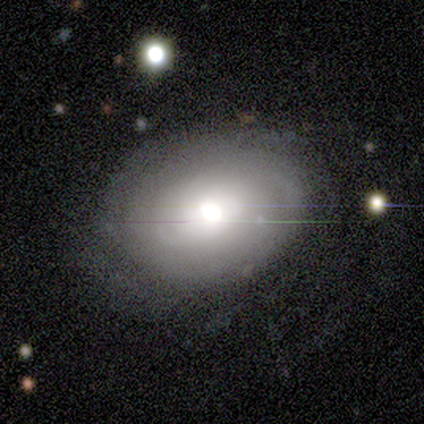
featured or disk 100%, smooth 0%, star or artifact 0%. Down the decision tree: edge-on disk — no (100%); bar — no (100%); spiral arms — yes (60%); spiral arm count — can't tell (100%); spiral winding — tight (100%); bulge size — moderate (60%); merging — none (40%, tied with minor disturbance).